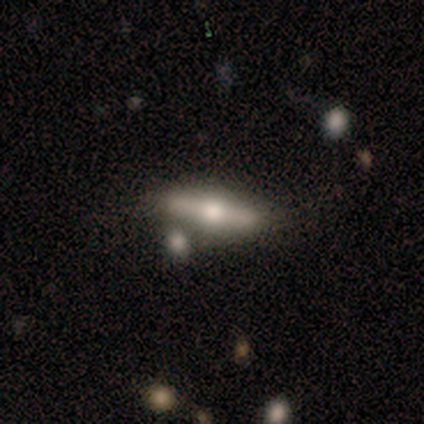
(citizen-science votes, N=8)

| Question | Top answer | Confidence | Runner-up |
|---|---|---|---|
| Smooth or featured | featured or disk | 50% | smooth (38%) |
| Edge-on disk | yes | 100% | — |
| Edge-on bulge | rounded | 100% | — |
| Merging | none | 71% | minor disturbance (14%) |